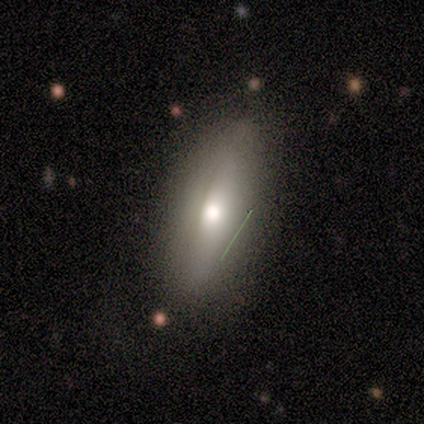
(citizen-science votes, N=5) A smooth galaxy with no disk features (80%) that is in between round and cigar-shaped (75%).

Vote fractions:
- Smooth or featured? smooth: 80% / featured or disk: 20% / star or artifact: 0%
- How rounded? in between: 75% / cigar-shaped: 25% / round: 0%
- Merging? none: 80% / minor disturbance: 20% / major disturbance: 0% / merger: 0%